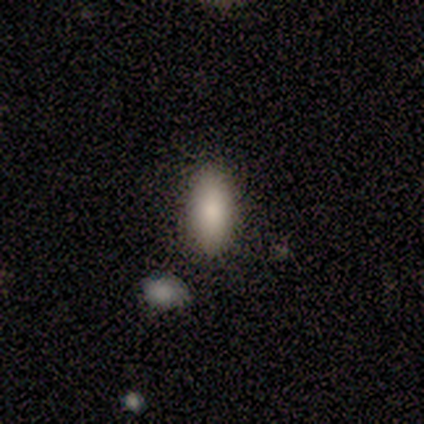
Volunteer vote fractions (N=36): Smooth or featured? smooth (78%)
How rounded? in between (79%)
Merging? none (79%)